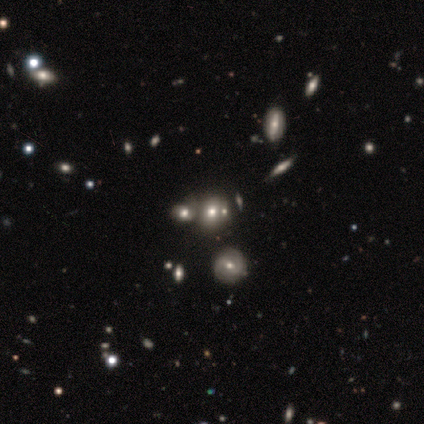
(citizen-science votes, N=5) Volunteers were most divided on "merging": merger: 60%, none: 20%, minor disturbance: 20%, major disturbance: 0%. More confident: smooth or featured — smooth (80%); how rounded — round (75%).